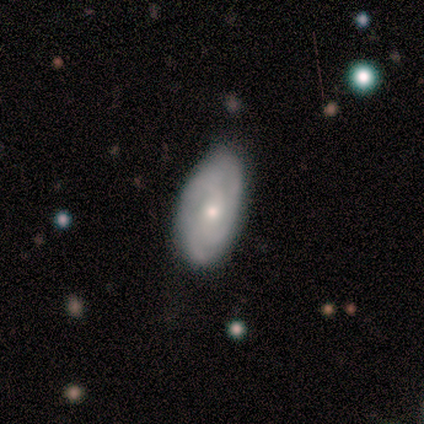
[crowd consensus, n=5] This is clearly a smooth galaxy (80%). How rounded: possibly in between (50%). Merging: likely minor disturbance (60%).